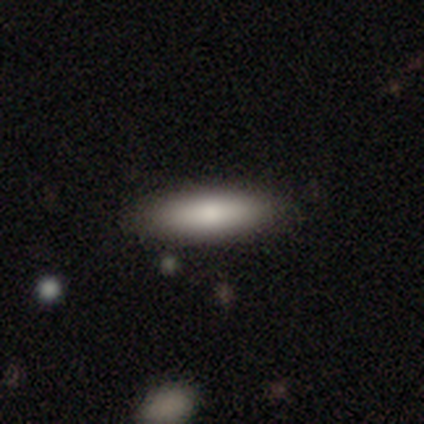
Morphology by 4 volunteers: Volunteers were most divided on "how rounded" (2-way tie): in between: 50%, cigar-shaped: 50%, round: 0%. More confident: smooth or featured — smooth (100%); merging — none (75%).